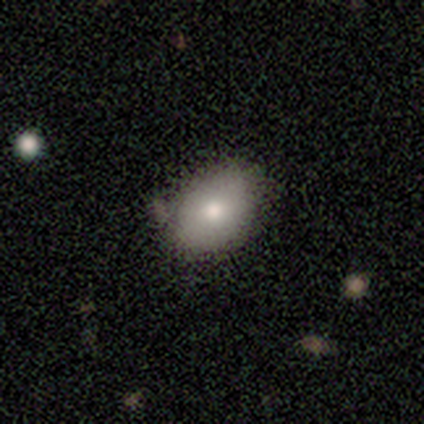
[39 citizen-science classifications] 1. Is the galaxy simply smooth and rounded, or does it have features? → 90% smooth, 8% featured or disk, 3% star or artifact.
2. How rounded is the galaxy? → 74% in between, 26% round, 0% cigar-shaped.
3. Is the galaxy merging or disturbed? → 63% none, 29% minor disturbance, 5% merger, 3% major disturbance.